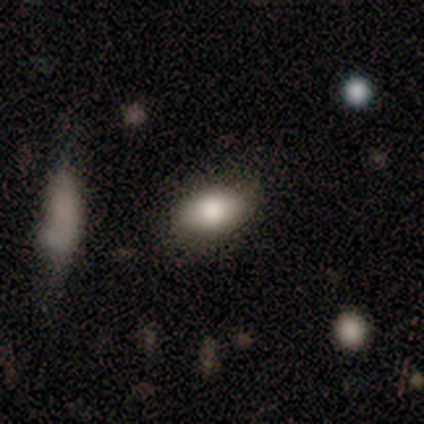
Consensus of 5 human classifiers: Overall: smooth (100%). How rounded: in between (80%). Merging: none (100%).